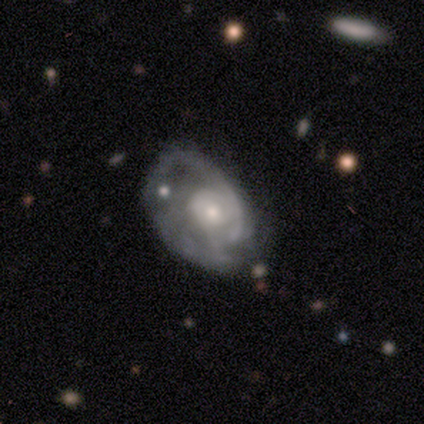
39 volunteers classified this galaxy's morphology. This appears to be a featured or disk galaxy (77%) with no bar (93%), medium (52%) spiral arms (82%) and a moderate central bulge (57%). Merging: major disturbance (53%).